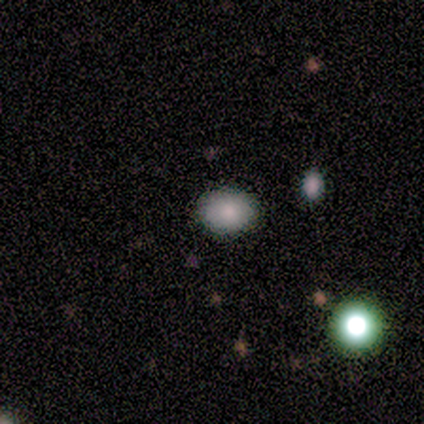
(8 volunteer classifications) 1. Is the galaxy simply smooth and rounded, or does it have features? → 100% smooth, 0% featured or disk, 0% star or artifact.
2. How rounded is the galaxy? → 50% round (tied), 50% in between (tied), 0% cigar-shaped.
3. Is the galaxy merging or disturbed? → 88% none, 12% merger, 0% minor disturbance, 0% major disturbance.